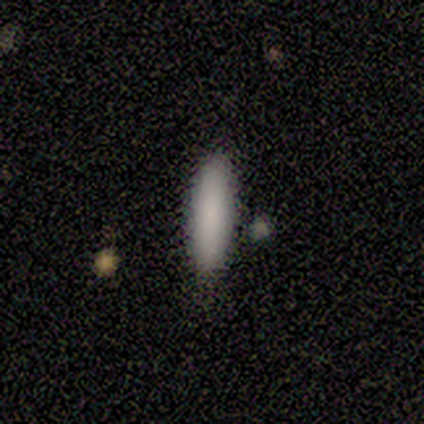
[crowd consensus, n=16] Q: Smooth or featured?
A: smooth (88%); runner-up: featured or disk (6%)
Q: How rounded?
A: cigar-shaped (64%); runner-up: in between (36%)
Q: Merging?
A: none (87%); runner-up: major disturbance (7%)